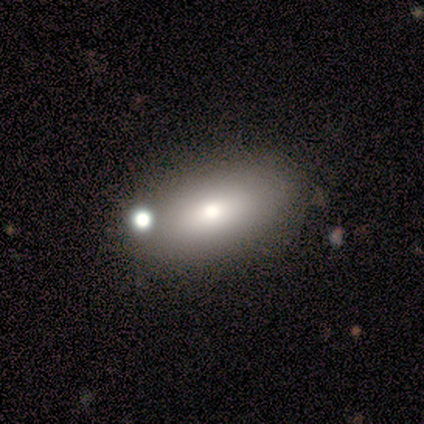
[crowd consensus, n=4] This appears to be a smooth galaxy with no disk features (50%, tied with star or artifact) that is in between round and cigar-shaped (100%). Merging: none (100%).